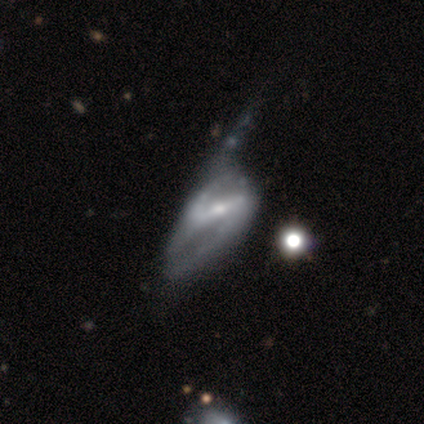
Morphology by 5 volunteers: This appears to be a featured or disk galaxy (60%) with a weak bar (67%), 2 (100%) loose (67%) spiral arms (100%) and a moderate central bulge (100%). Merging: merger (50%).